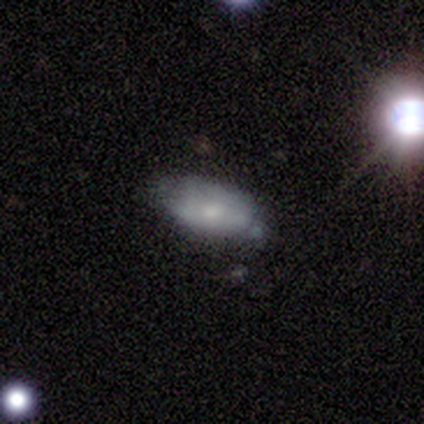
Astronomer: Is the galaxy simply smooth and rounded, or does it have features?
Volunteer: smooth — 61%.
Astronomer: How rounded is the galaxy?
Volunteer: in between — 96%.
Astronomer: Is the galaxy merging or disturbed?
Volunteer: none — 57% (runner-up: minor disturbance, 32%).